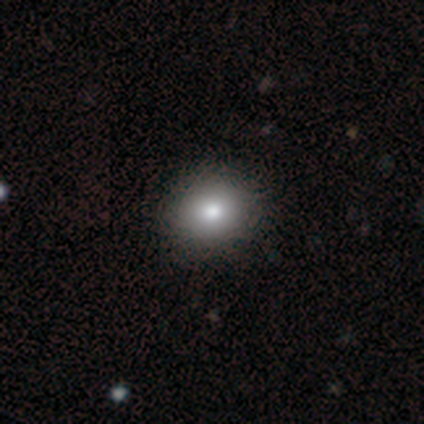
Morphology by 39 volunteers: smooth-or-featured: smooth: 77% | featured or disk: 13% | star or artifact: 10%
  how-rounded: round: 83% | in between: 17% | cigar-shaped: 0%
  merging: none: 69% | minor disturbance: 3% | major disturbance: 3% | merger: 3%